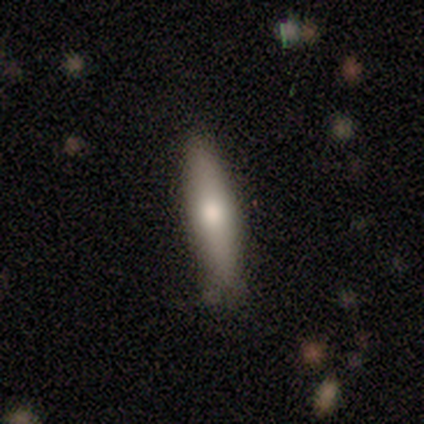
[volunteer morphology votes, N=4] Smooth or featured?
  - smooth: 50% * (tied)
  - star or artifact: 50% * (tied)
  - featured or disk: 0%
How rounded?
  - in between: 50% * (tied)
  - cigar-shaped: 50% * (tied)
  - round: 0%
Merging?
  - none: 100% *
  - minor disturbance: 0%
  - major disturbance: 0%
  - merger: 0%